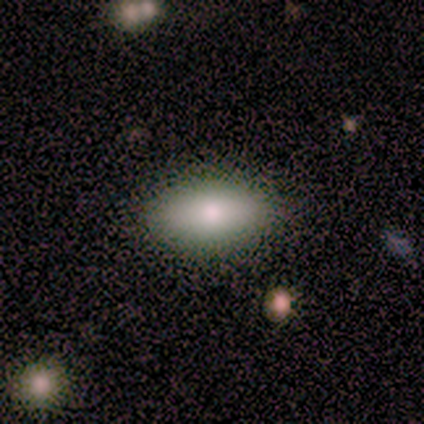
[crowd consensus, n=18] Morphology: type=smooth (100%); roundness=in between (94%); merging=none (83%).